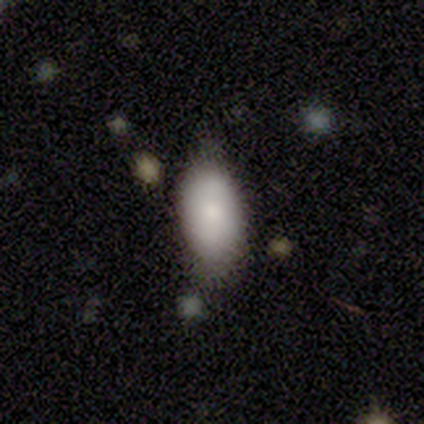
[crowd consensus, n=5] Smooth or featured?
  - smooth: 80% *
  - featured or disk: 20%
  - star or artifact: 0%
How rounded?
  - in between: 100% *
  - round: 0%
  - cigar-shaped: 0%
Merging?
  - none: 80% *
  - minor disturbance: 20%
  - major disturbance: 0%
  - merger: 0%